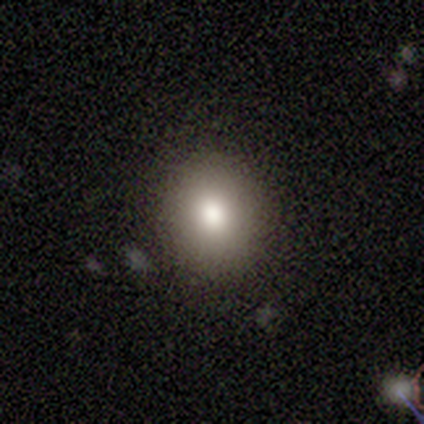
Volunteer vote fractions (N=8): A smooth galaxy with no disk features (75%) that is round (50%, tied with in between). Merging: none (100%).